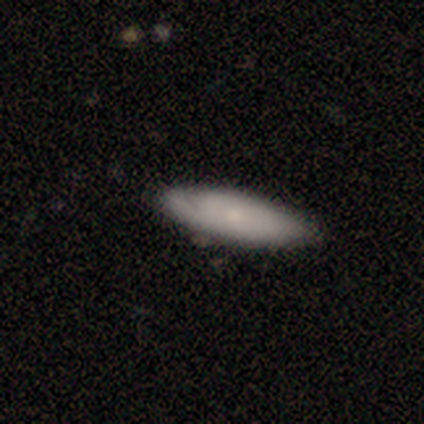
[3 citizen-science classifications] Smooth or featured: featured or disk — 67% (smooth — 33%)
Edge-on disk: no — 100%
Bar: weak — 50% (tied with no — 50%)
Spiral arms: yes — 100%
Spiral winding: medium — 50% (tied with loose — 50%)
Spiral arm count: 1 — 100%
Bulge size: small — 100%
Merging: none — 67% (minor disturbance — 33%)